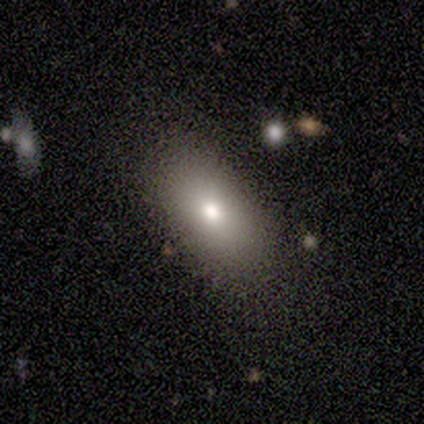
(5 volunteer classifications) This is clearly a smooth galaxy (80%). How rounded: clearly in between (100%). Merging: possibly none (50%).